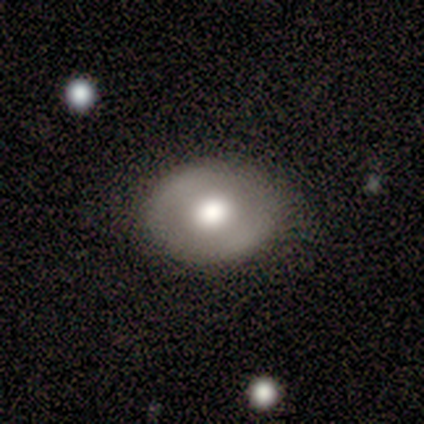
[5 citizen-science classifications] This is likely a featured or disk galaxy (60%). It is clearly not viewed edge-on (100%). Bar: likely no (67%). Spiral arm pattern: clearly no (100%). Central bulge: likely moderate (67%). Merging: clearly none (100%).